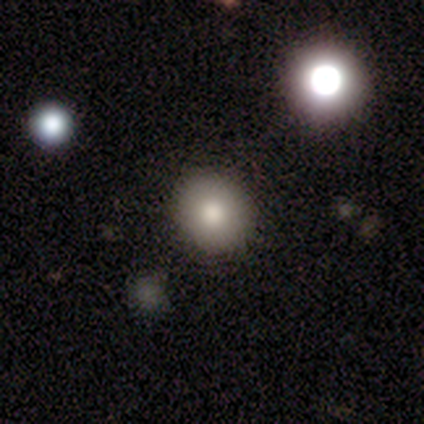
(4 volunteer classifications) A smooth galaxy with no disk features (100%) that is round (100%). Merging: none (100%).